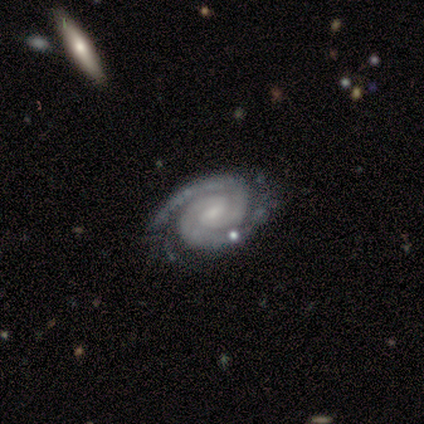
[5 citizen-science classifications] A featured or disk galaxy (100%) with a weak bar (60%), 2 (100%) tight (80%) spiral arms (100%) and a small central bulge (60%). Merging: none (80%).